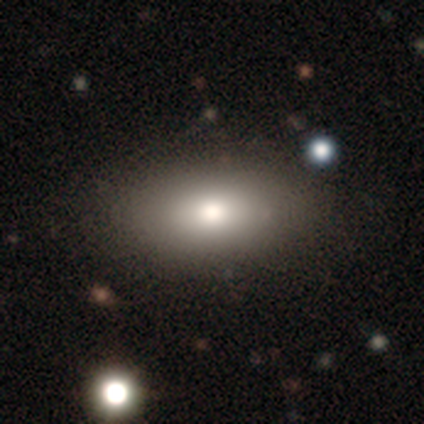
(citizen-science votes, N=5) Q: Smooth or featured?
A: smooth (60%); runner-up: featured or disk (20%)
Q: How rounded?
A: in between (100%)
Q: Merging?
A: none (100%)